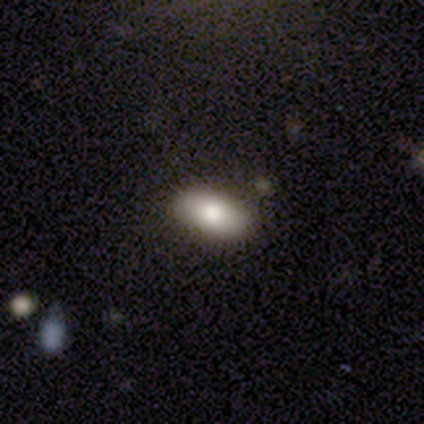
Smooth or featured? 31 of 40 (78%) said smooth. How rounded? 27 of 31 (87%) said in between. Merging? 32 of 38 (84%) said none.